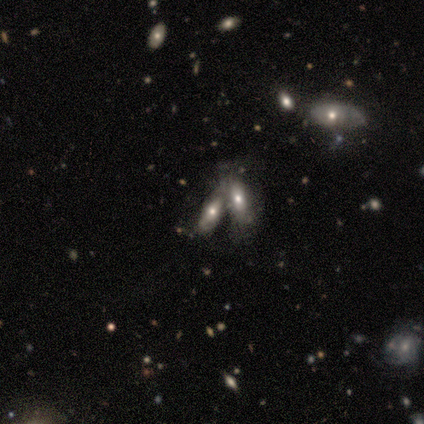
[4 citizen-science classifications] smooth-or-featured: featured or disk: 50% | smooth: 25% | star or artifact: 25%
  disk-edge-on: no: 100% | yes: 0%
    bar: no: 100% | strong: 0% | weak: 0%
    has-spiral-arms: yes: 50% (tied) | no: 50% (tied)
      spiral-winding: loose: 100% | tight: 0% | medium: 0%
      spiral-arm-count: can't tell: 100% | 1: 0% | 2: 0% | 3: 0% | 4: 0% | more than 4: 0%
    bulge-size: moderate: 50% (tied) | small: 50% (tied) | dominant: 0% | large: 0% | none: 0%
  merging: none: 33% (tied) | major disturbance: 33% (tied) | merger: 33% (tied) | minor disturbance: 0%